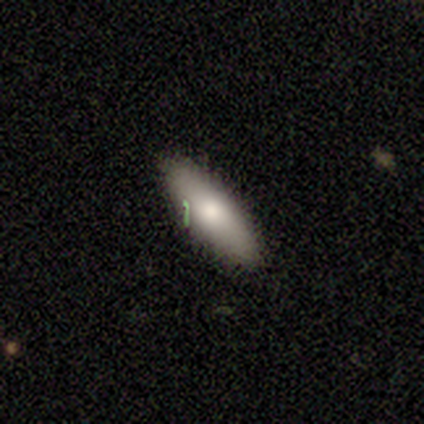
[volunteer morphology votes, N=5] smooth 60%, featured or disk 20%, star or artifact 20%. Down the decision tree: how rounded — in between (100%); merging — none (50%).